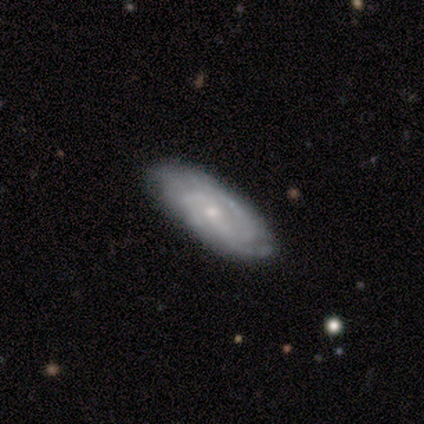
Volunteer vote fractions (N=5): Overall: featured or disk (60%; smooth 40%). Edge-on disk: no (100%). Bar: weak (67%; no 33%). Spiral arms: yes (100%). Spiral arm count: 2 (67%; can't tell 33%). Spiral winding: tight (33%, tied with medium and loose). Bulge size: small (67%; none 33%). Merging: none (100%).